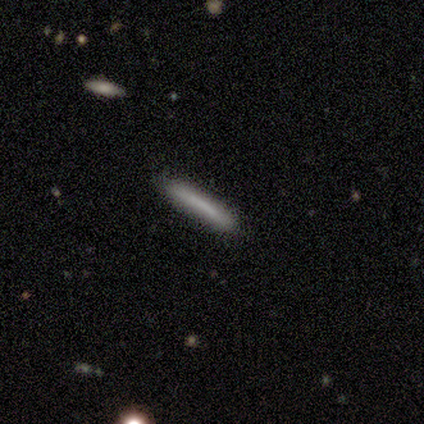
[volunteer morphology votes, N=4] Smooth or featured?
  - smooth: 50% *
  - featured or disk: 25%
  - star or artifact: 25%
How rounded?
  - cigar-shaped: 100% *
  - round: 0%
  - in between: 0%
Merging?
  - none: 100% *
  - minor disturbance: 0%
  - major disturbance: 0%
  - merger: 0%